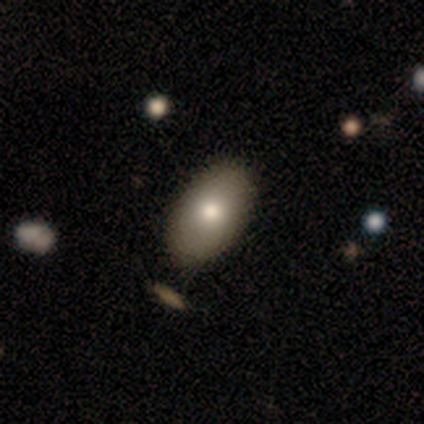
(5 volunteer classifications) A smooth galaxy with no disk features (100%) that is in between round and cigar-shaped (80%). Merging: none (80%).